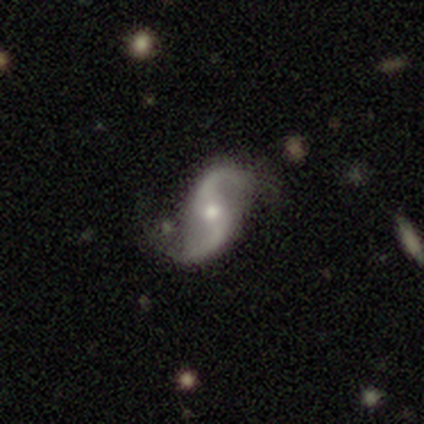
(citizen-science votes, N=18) Q: Smooth or featured?
A: featured or disk (94%); runner-up: star or artifact (6%)
Q: Edge-on disk?
A: no (100%)
Q: Bar?
A: no (65%); runner-up: weak (24%)
Q: Spiral arms?
A: yes (94%); runner-up: no (6%)
Q: Spiral winding?
A: loose (88%); runner-up: tight (12%)
Q: Spiral arm count?
A: 2 (94%); runner-up: 1 (6%)
Q: Bulge size?
A: moderate (59%); runner-up: small (41%)
Q: Merging?
A: none (88%); runner-up: minor disturbance (6%)